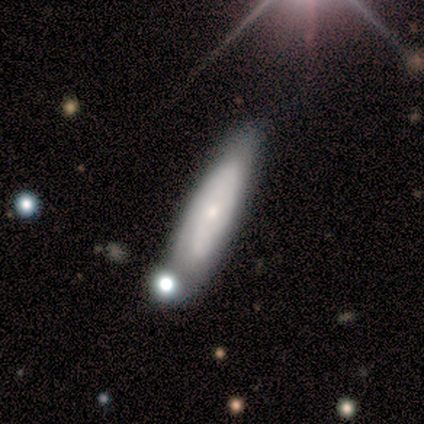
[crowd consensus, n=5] Morphology: type=featured or disk (80%); edge-on=no (100%); bar=no (100%); spiral arms=yes (100%); winding=tight (75%); arm count=can't tell (100%); bulge=small (100%); merging=none (60%).